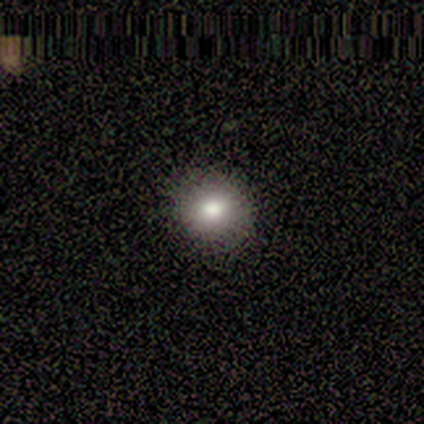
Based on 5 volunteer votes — Smooth or featured?
  - smooth: 80% *
  - star or artifact: 20%
  - featured or disk: 0%
How rounded?
  - round: 100% *
  - in between: 0%
  - cigar-shaped: 0%
Merging?
  - minor disturbance: 50% *
  - none: 25%
  - major disturbance: 25%
  - merger: 0%